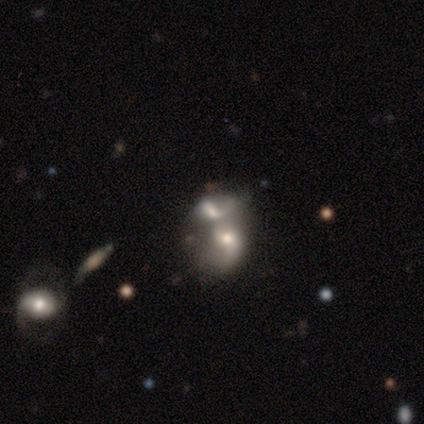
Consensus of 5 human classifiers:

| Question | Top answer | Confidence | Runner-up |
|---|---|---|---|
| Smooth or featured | smooth | 40% | tied: featured or disk (40%) |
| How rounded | round | 50% | tied: in between (50%) |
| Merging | merger | 75% | none (25%) |